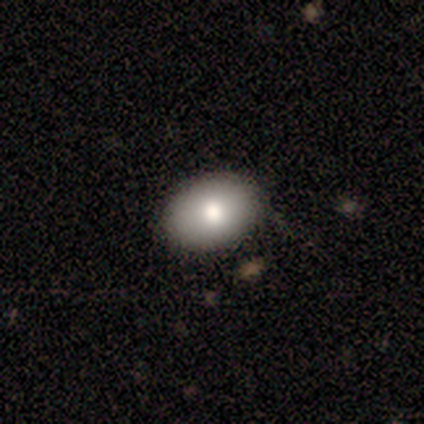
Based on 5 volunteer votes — smooth 80%, featured or disk 20%, star or artifact 0%. Down the decision tree: how rounded — in between (100%); merging — none (100%).